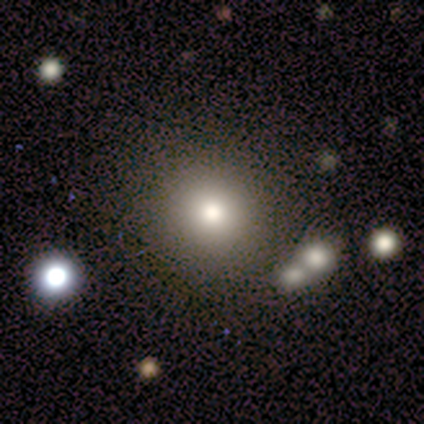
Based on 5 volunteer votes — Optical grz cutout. It shows a smooth galaxy with no disk features (80%) that is round (100%). Merging: none (100%).